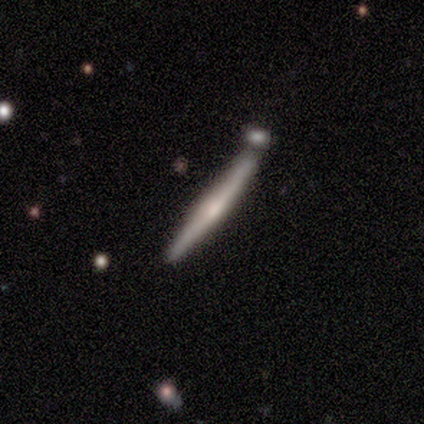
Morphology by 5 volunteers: type=featured or disk (60%); edge-on=yes (100%); edge-on bulge=rounded (100%); merging=none (60%).